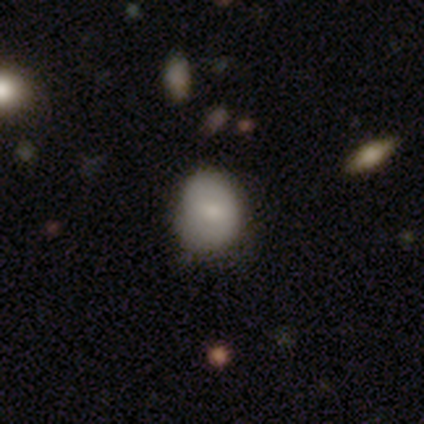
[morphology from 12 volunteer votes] This appears to be a smooth galaxy with no disk features (92%) that is in between round and cigar-shaped (55%). Merging: none (82%).